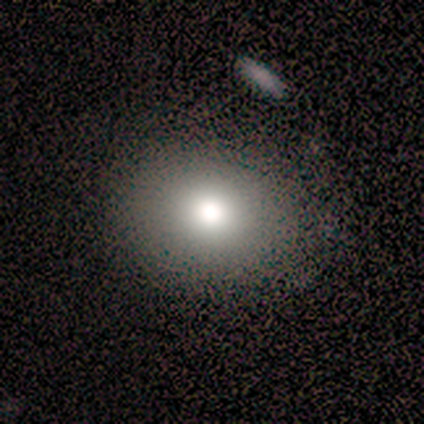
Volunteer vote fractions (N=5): This is marginally a smooth galaxy (40%, tied with star or artifact). How rounded: clearly round (100%). Merging: likely none (67%).